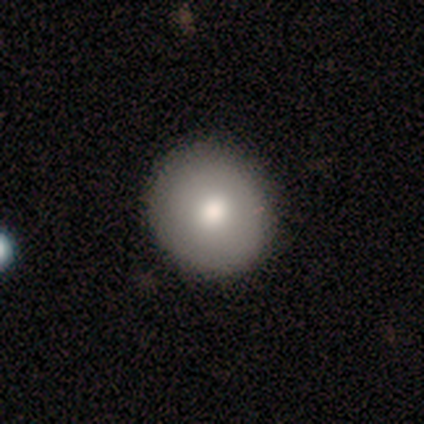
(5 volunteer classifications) Smooth or featured? 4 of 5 (80%) said smooth. How rounded? 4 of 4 (100%) said round. Merging? 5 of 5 (100%) said none.